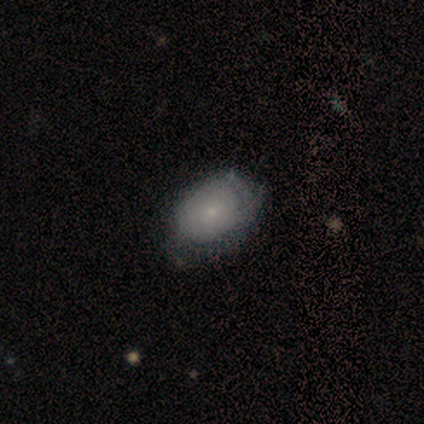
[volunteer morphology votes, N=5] Smooth or featured: smooth — 60% (featured or disk — 40%)
How rounded: in between — 100%
Merging: none — 60% (minor disturbance — 20%)